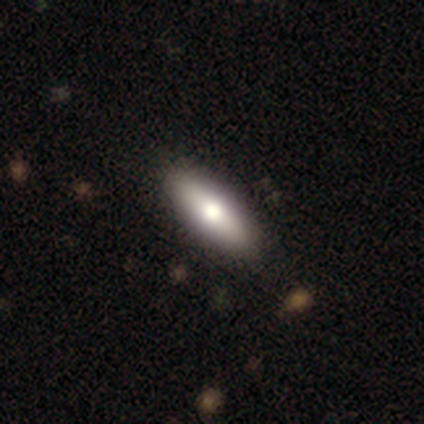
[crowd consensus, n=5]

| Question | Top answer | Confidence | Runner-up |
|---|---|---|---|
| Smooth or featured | smooth | 80% | featured or disk (20%) |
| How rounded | cigar-shaped | 75% | in between (25%) |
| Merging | none | 60% | minor disturbance (20%) |